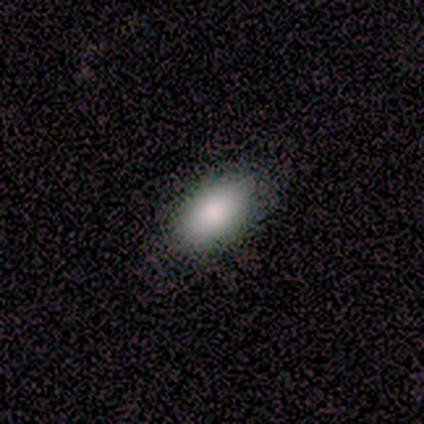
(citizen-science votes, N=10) This appears to be a smooth galaxy with no disk features (90%) that is in between round and cigar-shaped (100%). Merging: none (67%).